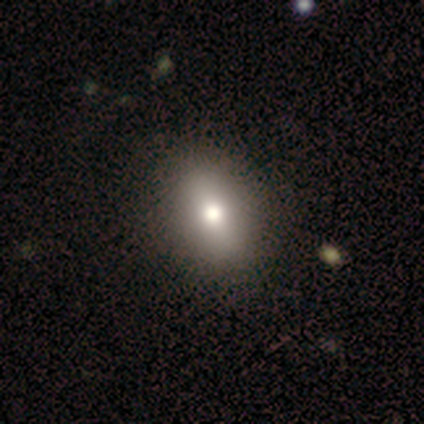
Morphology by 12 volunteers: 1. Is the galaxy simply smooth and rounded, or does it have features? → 75% smooth, 17% featured or disk, 8% star or artifact.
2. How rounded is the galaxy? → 89% in between, 11% round, 0% cigar-shaped.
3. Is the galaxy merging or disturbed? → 91% none, 9% minor disturbance, 0% major disturbance, 0% merger.